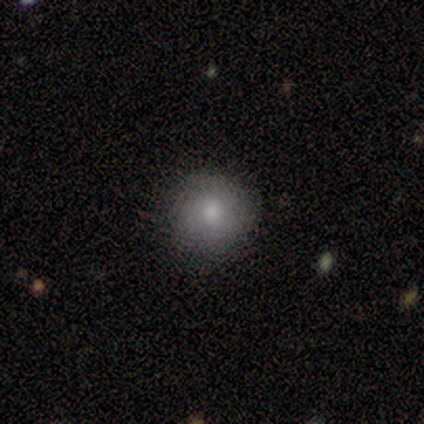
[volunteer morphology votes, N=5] Overall: smooth (100%). How rounded: round (80%). Merging: none (100%).